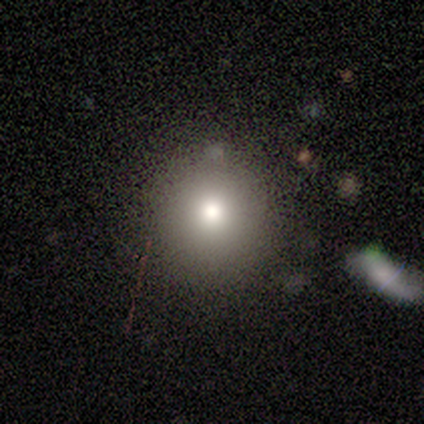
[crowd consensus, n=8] smooth 62%, featured or disk 25%, star or artifact 12%. Down the decision tree: how rounded — round (100%); merging — none (71%).